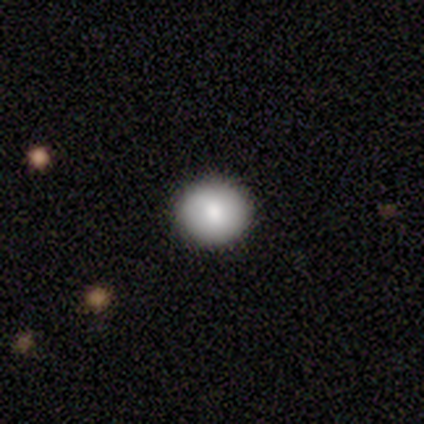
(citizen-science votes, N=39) This is clearly a smooth galaxy (82%). How rounded: clearly round (97%). Merging: clearly none (89%).